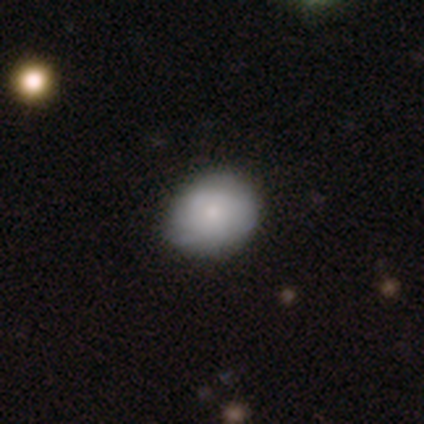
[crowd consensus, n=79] Smooth or featured? smooth (72%)
How rounded? round (58%)
Merging? none (38%)